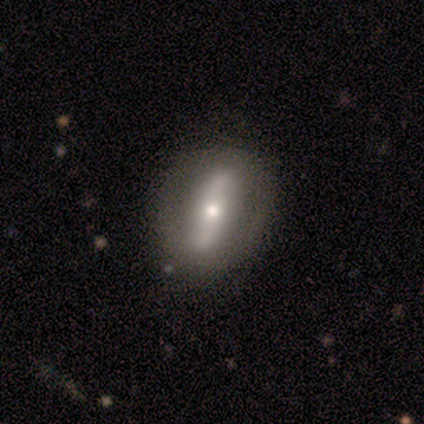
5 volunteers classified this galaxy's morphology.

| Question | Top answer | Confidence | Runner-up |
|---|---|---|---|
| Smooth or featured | featured or disk | 60% | smooth (40%) |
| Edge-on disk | no | 100% | — |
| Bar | strong | 100% | — |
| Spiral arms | yes | 67% | no (33%) |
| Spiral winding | loose | 100% | — |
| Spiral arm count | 2 | 100% | — |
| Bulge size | large | 33% | tied: moderate (33%), small (33%) |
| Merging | none | 100% | — |